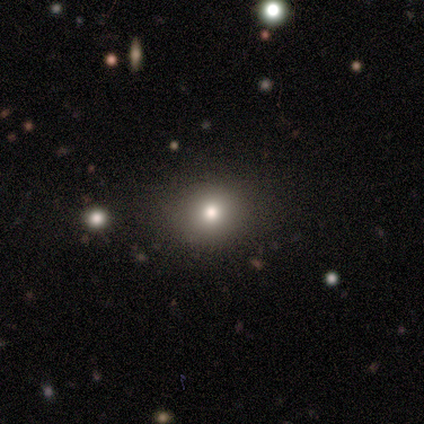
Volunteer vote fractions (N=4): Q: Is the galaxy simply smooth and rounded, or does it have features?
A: smooth — 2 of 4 (50%).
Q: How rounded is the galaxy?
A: round — 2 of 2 (100%).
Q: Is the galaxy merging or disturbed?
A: none — 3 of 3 (100%).